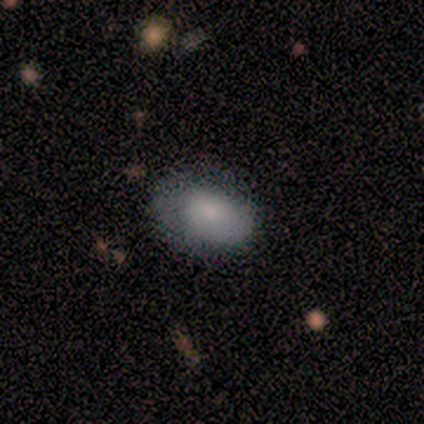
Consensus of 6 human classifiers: Volunteers were most divided on "smooth or featured": smooth: 50%, featured or disk: 33%, star or artifact: 17%. More confident: how rounded — in between (100%); merging — none (80%).